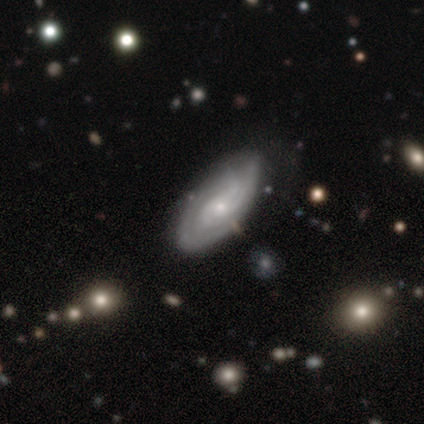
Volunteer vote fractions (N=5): A featured or disk galaxy (100%) with no bar (60%), medium (50%) spiral arms (80%) and a moderate central bulge (80%).

Vote fractions:
- Smooth or featured? featured or disk: 100% / smooth: 0% / star or artifact: 0%
- Edge-on disk? no: 100% / yes: 0%
- Bar? no: 60% / weak: 40% / strong: 0%
- Spiral arms? yes: 80% / no: 20%
- Spiral winding? medium: 50% / tight: 25% / loose: 25%
- Spiral arm count? can't tell: 50% / 2: 25% / 3: 25% / 1: 0% / 4: 0% / more than 4: 0%
- Bulge size? moderate: 80% / small: 20% / dominant: 0% / large: 0% / none: 0%
- Merging? none: 60% / minor disturbance: 40% / major disturbance: 0% / merger: 0%